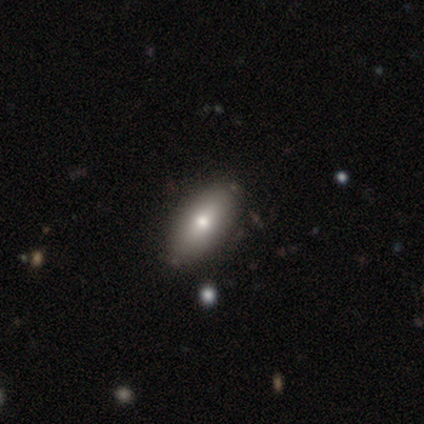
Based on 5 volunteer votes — smooth-or-featured: smooth: 60% | featured or disk: 20% | star or artifact: 20%
  how-rounded: cigar-shaped: 67% | in between: 33% | round: 0%
  merging: none: 100% | minor disturbance: 0% | major disturbance: 0% | merger: 0%